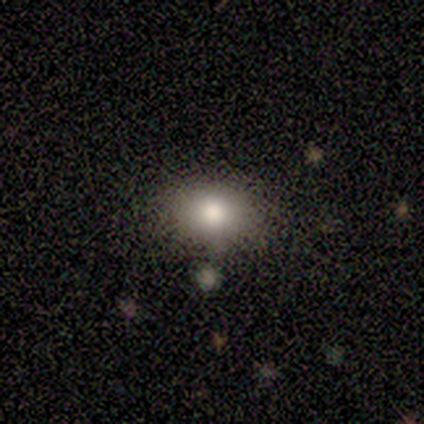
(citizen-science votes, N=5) Smooth or featured: smooth — 80% (featured or disk — 20%)
How rounded: round — 50% (tied with in between — 50%)
Merging: none — 80% (minor disturbance — 20%)